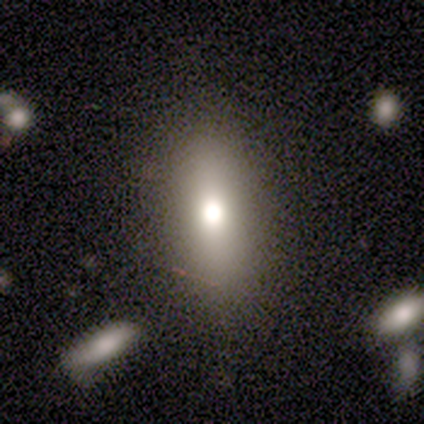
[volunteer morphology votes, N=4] Smooth or featured: smooth — 50% (featured or disk — 25%)
How rounded: in between — 100%
Merging: none — 67% (minor disturbance — 33%)